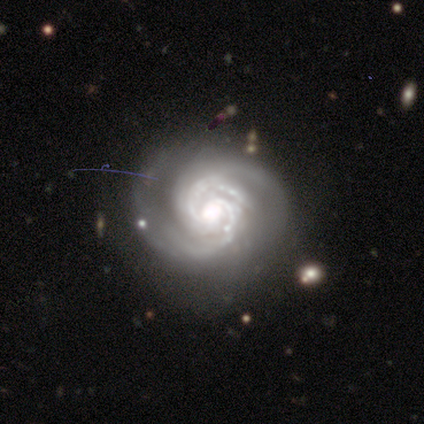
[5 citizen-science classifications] Overall: featured or disk (100%). Edge-on disk: no (100%). Bar: no (60%; strong 20%). Spiral arms: yes (100%). Spiral arm count: 2 (40%, tied with 3). Spiral winding: tight (60%; medium 20%). Bulge size: large (60%; moderate 40%). Merging: none (80%).